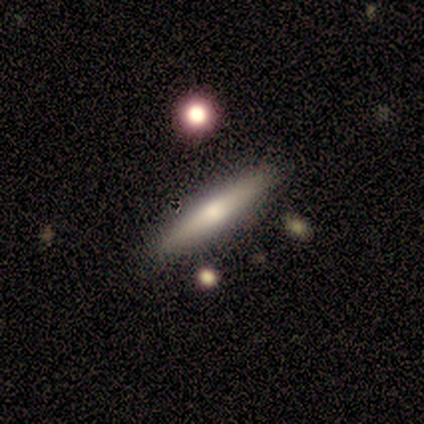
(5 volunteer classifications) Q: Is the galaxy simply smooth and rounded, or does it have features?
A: featured or disk — 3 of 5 (60%).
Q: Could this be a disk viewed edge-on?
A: yes — 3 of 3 (100%).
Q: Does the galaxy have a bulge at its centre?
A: none — 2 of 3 (67%).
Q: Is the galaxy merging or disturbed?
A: none — 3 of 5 (60%).